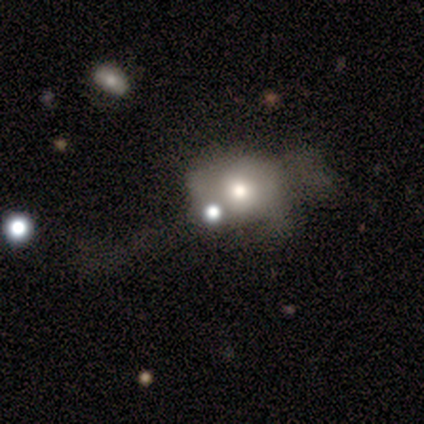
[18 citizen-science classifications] smooth-or-featured: smooth: 44% | featured or disk: 28% | star or artifact: 28%
  how-rounded: round: 50% (tied) | in between: 50% (tied) | cigar-shaped: 0%
  merging: minor disturbance: 31% | none: 23% | major disturbance: 23% | merger: 23%